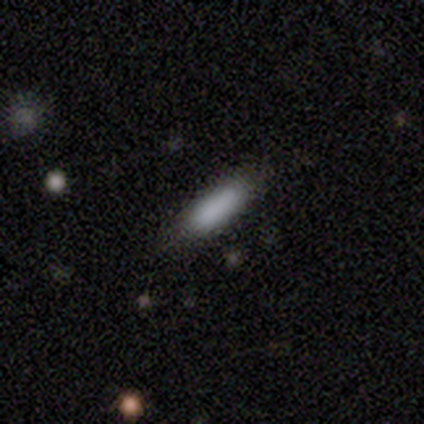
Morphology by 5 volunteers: smooth 100%, featured or disk 0%, star or artifact 0%. Down the decision tree: how rounded — cigar-shaped (60%); merging — none (80%).